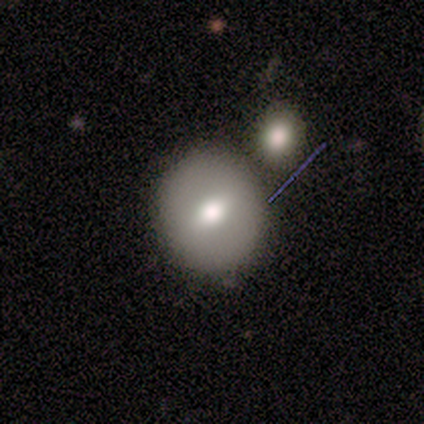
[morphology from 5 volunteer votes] type=smooth (60%); roundness=round (100%); merging=none (60%).